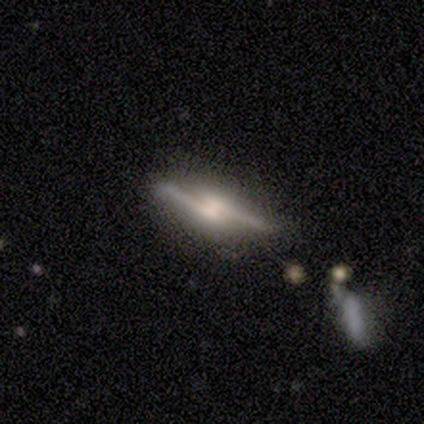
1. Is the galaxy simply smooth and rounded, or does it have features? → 100% featured or disk, 0% smooth, 0% star or artifact.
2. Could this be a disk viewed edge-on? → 50% yes (tied), 50% no (tied).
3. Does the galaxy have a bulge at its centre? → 100% rounded, 0% boxy, 0% none.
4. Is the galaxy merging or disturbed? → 50% merger, 25% none, 25% minor disturbance, 0% major disturbance.